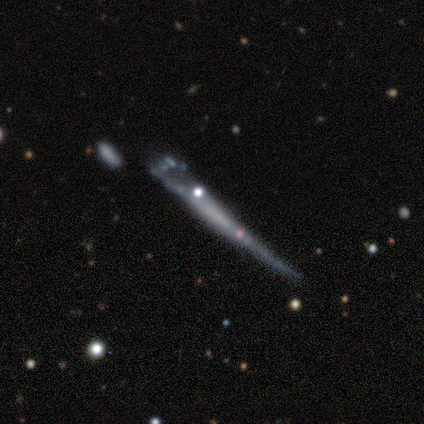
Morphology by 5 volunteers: A featured or disk galaxy (60%) viewed edge-on (67%) with no central bulge (100%). Merging: minor disturbance (60%).